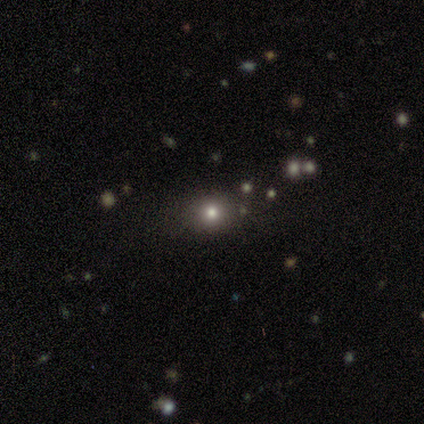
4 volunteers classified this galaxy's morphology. A star or artifact, not a galaxy (100%).

Vote fractions:
- Smooth or featured? star or artifact: 100% / smooth: 0% / featured or disk: 0%